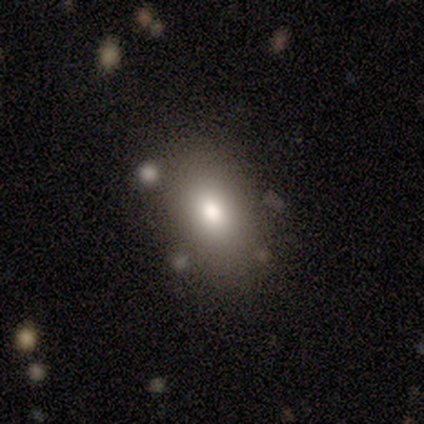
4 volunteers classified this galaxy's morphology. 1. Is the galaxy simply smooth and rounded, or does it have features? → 75% smooth, 25% featured or disk, 0% star or artifact.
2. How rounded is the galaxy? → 100% in between, 0% round, 0% cigar-shaped.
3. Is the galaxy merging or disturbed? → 75% none, 25% minor disturbance, 0% major disturbance, 0% merger.